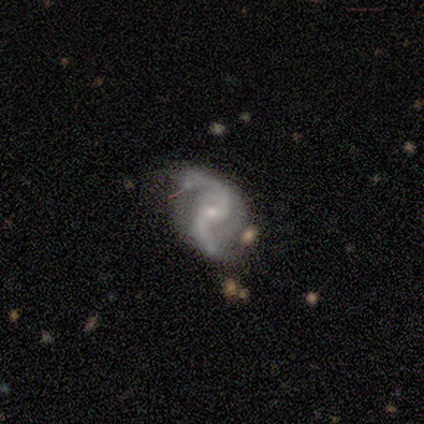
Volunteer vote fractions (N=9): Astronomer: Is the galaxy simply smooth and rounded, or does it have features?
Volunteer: featured or disk — 89%.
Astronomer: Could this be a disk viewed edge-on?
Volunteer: no — 100%.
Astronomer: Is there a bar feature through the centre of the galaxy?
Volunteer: no — 62%.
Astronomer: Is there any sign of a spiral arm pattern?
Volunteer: yes — 100%.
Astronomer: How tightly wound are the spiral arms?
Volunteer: loose — 88%.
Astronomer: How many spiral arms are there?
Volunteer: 2 — 100%.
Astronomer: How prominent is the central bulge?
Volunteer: small — 75%.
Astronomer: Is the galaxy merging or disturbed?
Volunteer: minor disturbance — 50% (runner-up: none, 38%).